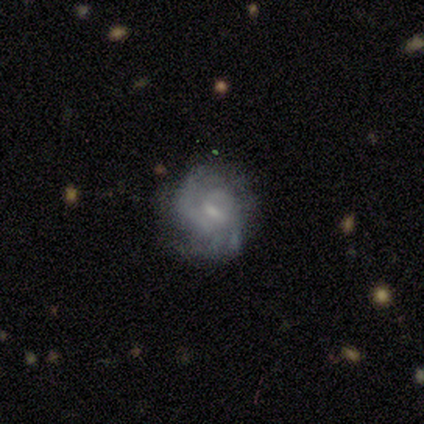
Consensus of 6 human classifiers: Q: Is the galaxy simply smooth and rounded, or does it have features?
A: featured or disk — 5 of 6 (83%).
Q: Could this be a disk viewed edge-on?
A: no — 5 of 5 (100%).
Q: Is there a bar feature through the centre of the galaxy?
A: weak — 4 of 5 (80%).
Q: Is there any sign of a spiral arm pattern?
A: yes — 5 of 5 (100%).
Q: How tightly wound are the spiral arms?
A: tight — 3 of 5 (60%).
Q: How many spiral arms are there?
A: can't tell — 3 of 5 (60%).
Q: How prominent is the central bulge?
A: moderate — 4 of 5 (80%).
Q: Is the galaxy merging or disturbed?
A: none — 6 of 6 (100%).